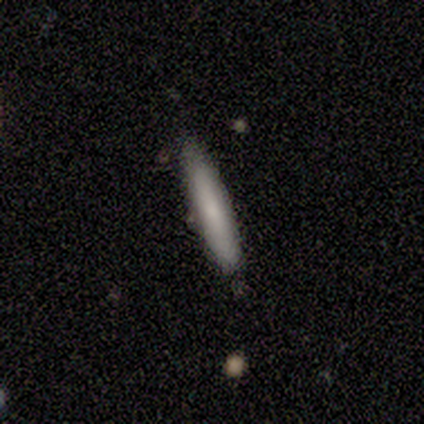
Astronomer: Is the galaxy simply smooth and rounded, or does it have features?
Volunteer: smooth — 80%.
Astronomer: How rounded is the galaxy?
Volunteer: in between — 50%, tied with cigar-shaped at 50%.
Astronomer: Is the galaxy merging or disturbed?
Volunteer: none — 80%.